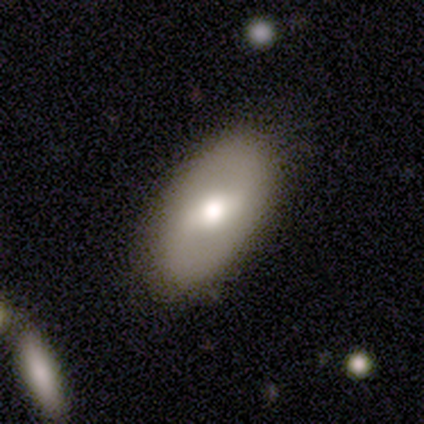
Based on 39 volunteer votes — featured or disk 67%, smooth 31%, star or artifact 3%. Down the decision tree: edge-on disk — no (96%); bar — weak (48%); spiral arms — yes (56%); spiral arm count — 2 (93%); spiral winding — loose (64%); bulge size — moderate (84%); merging — none (76%).